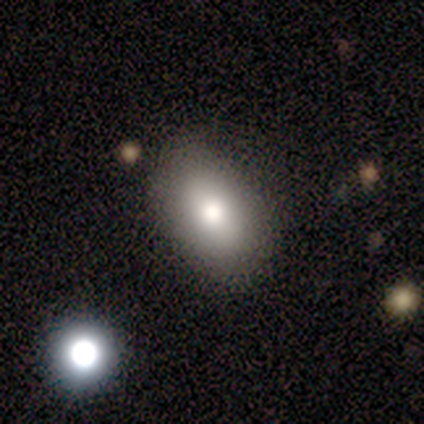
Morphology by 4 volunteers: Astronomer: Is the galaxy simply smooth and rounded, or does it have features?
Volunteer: smooth — 100%.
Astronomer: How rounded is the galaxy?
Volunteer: in between — 100%.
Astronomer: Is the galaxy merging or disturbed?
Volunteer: none — 75%.